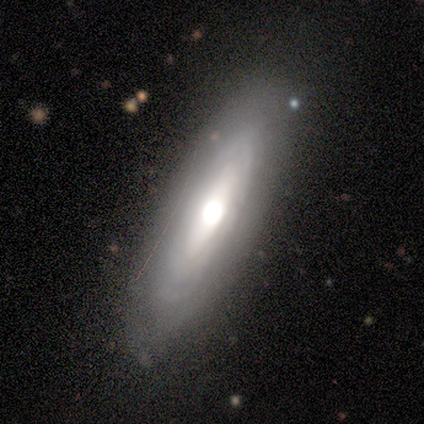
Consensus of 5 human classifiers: Q: Smooth or featured?
A: featured or disk (80%); runner-up: smooth (20%)
Q: Edge-on disk?
A: yes (75%); runner-up: no (25%)
Q: Edge-on bulge?
A: rounded (100%)
Q: Merging?
A: none (60%); runner-up: minor disturbance (20%)